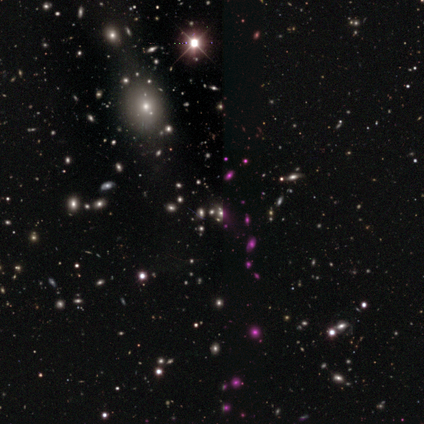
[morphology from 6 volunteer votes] smooth_or_featured: star or artifact (p=1.00)